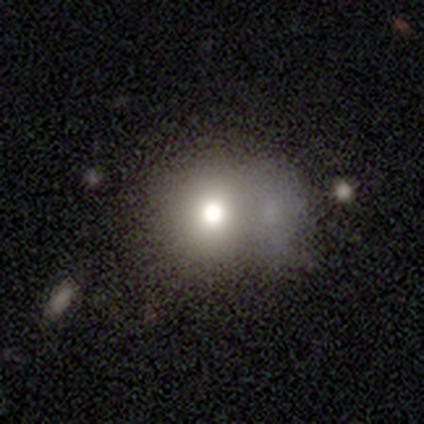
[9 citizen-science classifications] A smooth galaxy with no disk features (44%, tied with featured or disk) that is round (100%). Merging: merger (50%).